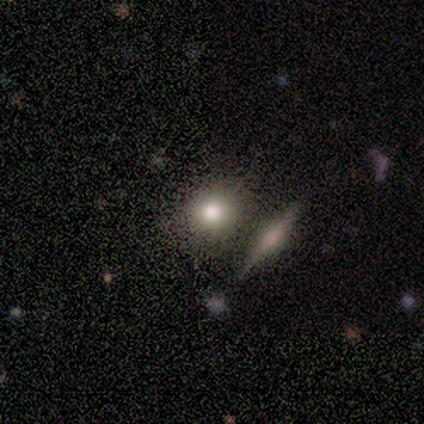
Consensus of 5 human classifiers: A smooth galaxy with no disk features (80%) that is round (100%).

Vote fractions:
- Smooth or featured? smooth: 80% / featured or disk: 20% / star or artifact: 0%
- How rounded? round: 100% / in between: 0% / cigar-shaped: 0%
- Merging? none: 100% / minor disturbance: 0% / major disturbance: 0% / merger: 0%